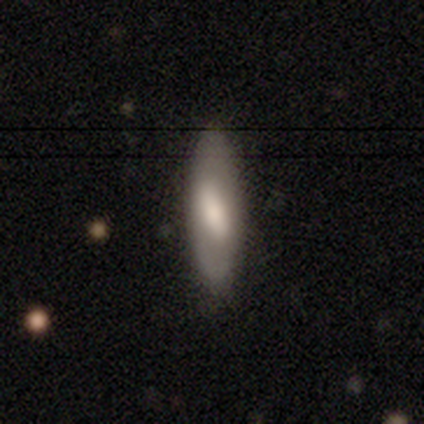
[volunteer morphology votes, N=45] type=smooth (73%); roundness=in between (55%); merging=none (81%).